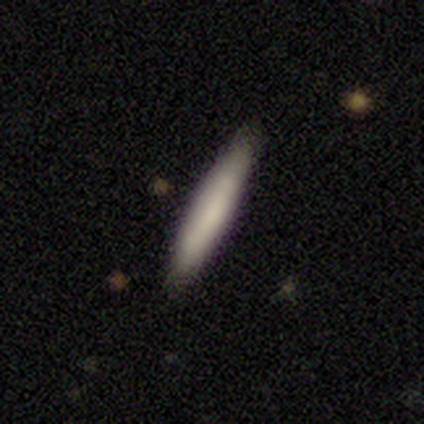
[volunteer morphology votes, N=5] smooth-or-featured: smooth: 100% | featured or disk: 0% | star or artifact: 0%
  how-rounded: cigar-shaped: 100% | round: 0% | in between: 0%
  merging: none: 100% | minor disturbance: 0% | major disturbance: 0% | merger: 0%